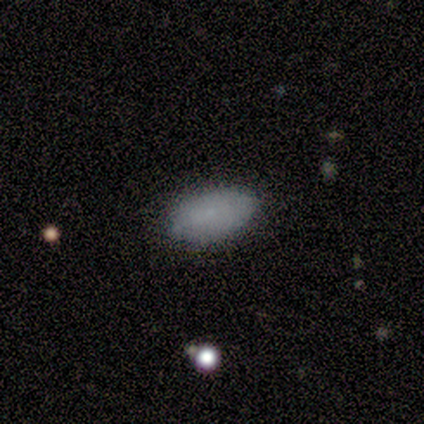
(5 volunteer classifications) smooth-or-featured: smooth: 100% | featured or disk: 0% | star or artifact: 0%
  how-rounded: in between: 100% | round: 0% | cigar-shaped: 0%
  merging: none: 60% | minor disturbance: 40% | major disturbance: 0% | merger: 0%